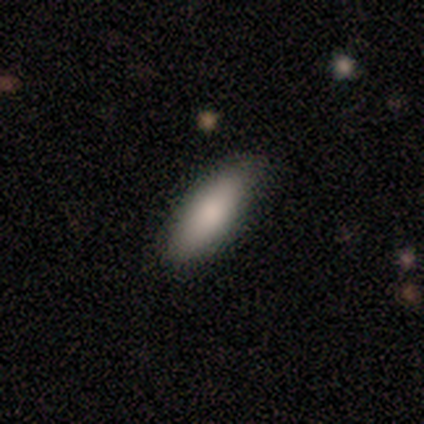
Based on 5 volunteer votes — This appears to be a smooth galaxy with no disk features (80%) that is in between round and cigar-shaped (75%). Merging: none (75%).